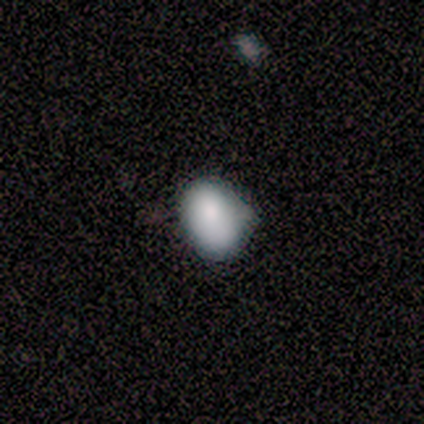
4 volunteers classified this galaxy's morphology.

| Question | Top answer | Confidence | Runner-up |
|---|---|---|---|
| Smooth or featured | smooth | 100% | — |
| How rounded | in between | 100% | — |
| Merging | none | 50% | tied: minor disturbance (50%) |